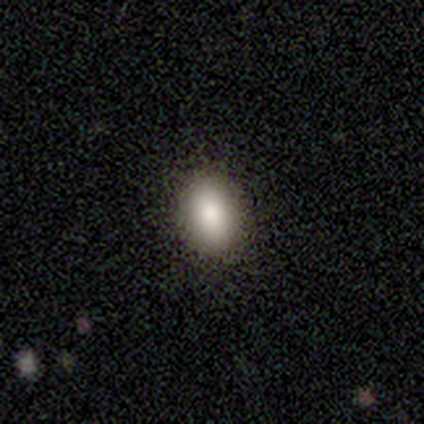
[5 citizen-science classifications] Volunteers were most divided on "smooth or featured": smooth: 80%, featured or disk: 20%, star or artifact: 0%. More confident: how rounded — in between (100%); merging — none (80%).